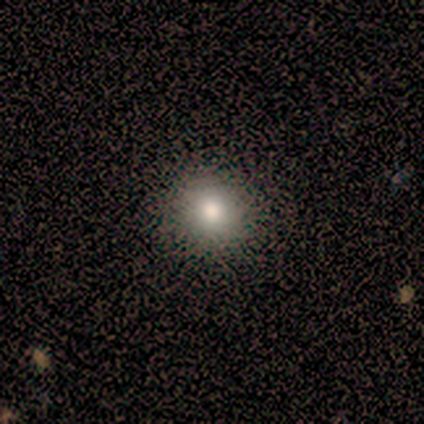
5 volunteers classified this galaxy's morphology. Smooth or featured: smooth — 100%
How rounded: round — 100%
Merging: none — 100%